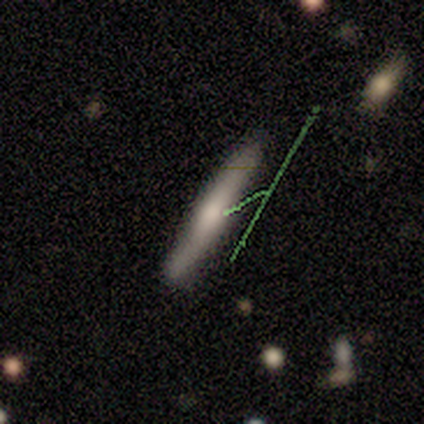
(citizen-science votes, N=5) This appears to be a smooth galaxy with no disk features (60%) that is cigar-shaped (100%). Merging: none (100%).